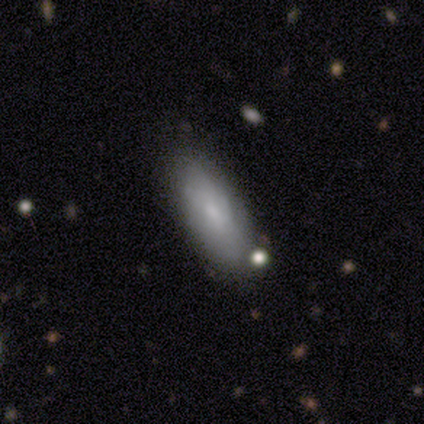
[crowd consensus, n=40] Smooth or featured? smooth (68%)
How rounded? in between (85%)
Merging? none (71%)